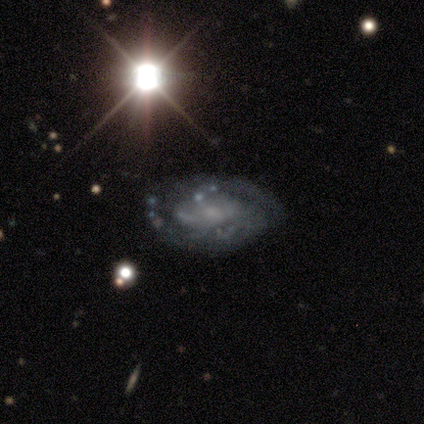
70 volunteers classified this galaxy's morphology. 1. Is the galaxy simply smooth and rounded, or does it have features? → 81% featured or disk, 10% smooth, 9% star or artifact.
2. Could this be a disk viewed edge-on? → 100% no, 0% yes.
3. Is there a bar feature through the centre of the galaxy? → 67% no, 23% weak, 11% strong.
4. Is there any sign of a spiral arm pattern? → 77% yes, 23% no.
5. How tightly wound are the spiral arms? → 59% tight, 23% loose, 18% medium.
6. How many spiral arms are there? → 45% 2, 41% can't tell, 14% 3, 0% 1, 0% 4, 0% more than 4.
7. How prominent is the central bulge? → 63% small, 30% none, 5% moderate, 2% large, 0% dominant.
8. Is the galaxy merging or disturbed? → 47% none, 34% minor disturbance, 16% major disturbance, 3% merger.